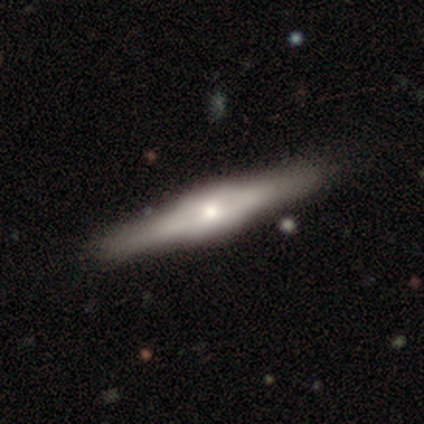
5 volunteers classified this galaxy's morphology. Overall: featured or disk (60%; smooth 20%). Edge-on disk: yes (100%). Edge-on bulge: boxy (67%; rounded 33%). Merging: none (100%).